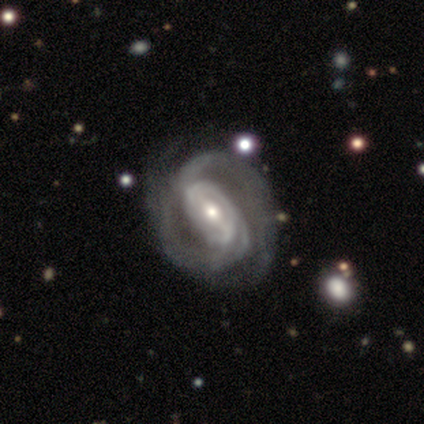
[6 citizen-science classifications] Smooth or featured?
  - featured or disk: 100% *
  - smooth: 0%
  - star or artifact: 0%
Edge-on disk?
  - no: 83% *
  - yes: 17%
Bar?
  - strong: 60% *
  - weak: 20%
  - no: 20%
Spiral arms?
  - yes: 100% *
  - no: 0%
Spiral winding?
  - tight: 80% *
  - medium: 20%
  - loose: 0%
Spiral arm count?
  - 2: 80% *
  - can't tell: 20%
  - 1: 0%
  - 3: 0%
  - 4: 0%
  - more than 4: 0%
Bulge size?
  - small: 80% *
  - moderate: 20%
  - dominant: 0%
  - large: 0%
  - none: 0%
Merging?
  - minor disturbance: 67% *
  - none: 33%
  - major disturbance: 0%
  - merger: 0%